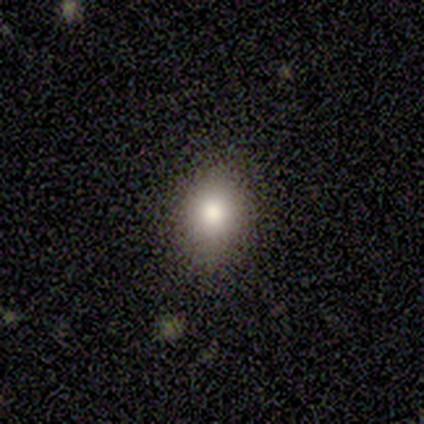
Smooth or featured: smooth — 100%
How rounded: round — 75% (in between — 25%)
Merging: none — 100%